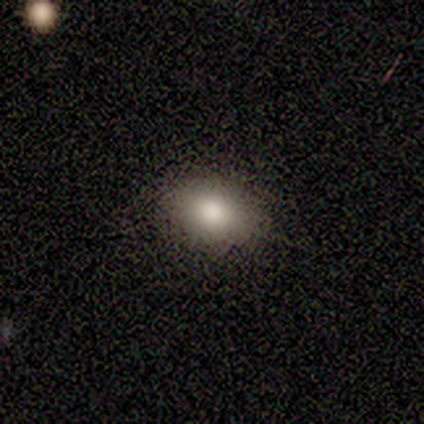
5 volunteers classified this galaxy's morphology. smooth 80%, star or artifact 20%, featured or disk 0%. Down the decision tree: how rounded — in between (100%); merging — none (75%).